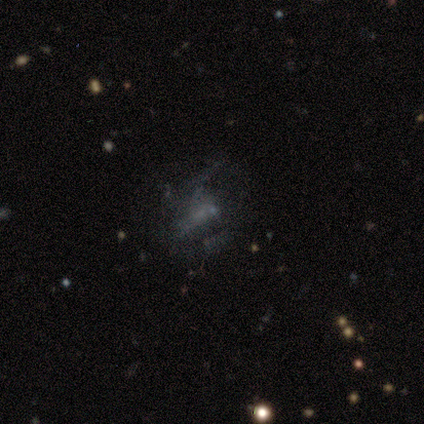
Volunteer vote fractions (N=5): smooth 40% (tied), star or artifact 40% (tied), featured or disk 20%. Down the decision tree: how rounded — in between (100%); merging — major disturbance (67%).